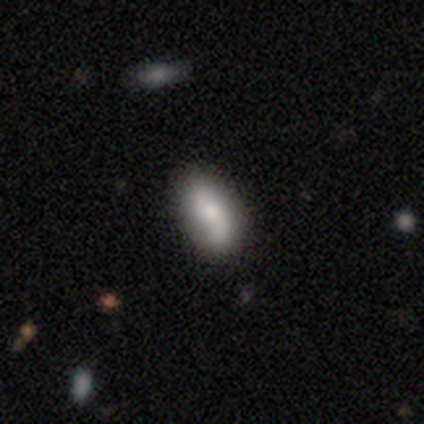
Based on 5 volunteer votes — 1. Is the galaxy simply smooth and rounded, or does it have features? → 80% featured or disk, 20% smooth, 0% star or artifact.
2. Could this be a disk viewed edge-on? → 100% no, 0% yes.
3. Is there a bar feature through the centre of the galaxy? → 75% no, 25% strong, 0% weak.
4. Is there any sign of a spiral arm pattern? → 100% yes, 0% no.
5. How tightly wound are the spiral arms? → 50% medium (tied), 50% loose (tied), 0% tight.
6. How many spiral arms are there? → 75% 2, 25% 1, 0% 3, 0% 4, 0% more than 4, 0% can't tell.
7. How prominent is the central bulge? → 50% moderate, 25% large, 25% small, 0% dominant, 0% none.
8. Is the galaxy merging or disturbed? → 60% none, 40% minor disturbance, 0% major disturbance, 0% merger.